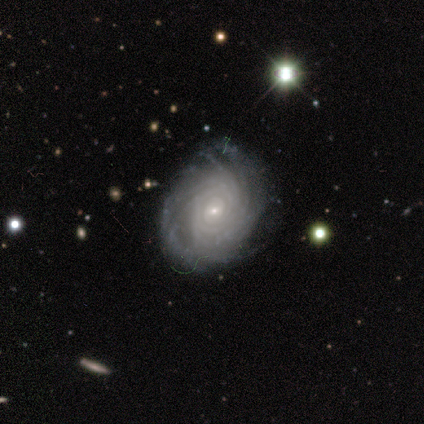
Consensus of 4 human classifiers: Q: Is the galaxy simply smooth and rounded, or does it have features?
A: featured or disk — 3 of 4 (75%).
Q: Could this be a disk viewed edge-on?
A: no — 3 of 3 (100%).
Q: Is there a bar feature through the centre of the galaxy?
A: no — 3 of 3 (100%).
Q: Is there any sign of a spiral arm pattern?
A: yes — 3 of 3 (100%).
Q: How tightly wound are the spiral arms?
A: medium — 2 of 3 (67%).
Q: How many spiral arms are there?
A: more than 4 — 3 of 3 (100%).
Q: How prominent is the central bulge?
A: small — 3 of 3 (100%).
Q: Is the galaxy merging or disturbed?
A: none — 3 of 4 (75%).